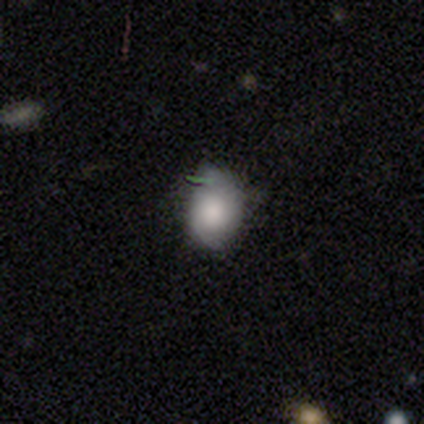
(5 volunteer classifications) Smooth or featured?
  - smooth: 80% *
  - featured or disk: 20%
  - star or artifact: 0%
How rounded?
  - round: 75% *
  - in between: 25%
  - cigar-shaped: 0%
Merging?
  - none: 100% *
  - minor disturbance: 0%
  - major disturbance: 0%
  - merger: 0%